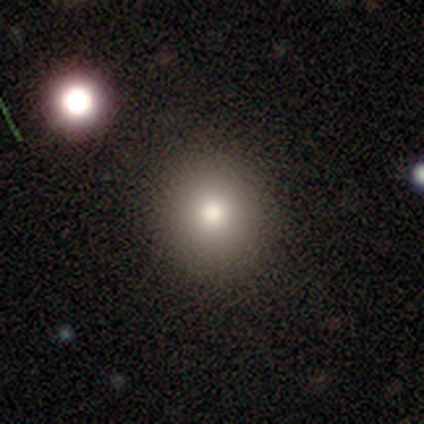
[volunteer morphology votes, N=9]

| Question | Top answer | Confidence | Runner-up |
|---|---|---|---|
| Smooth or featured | smooth | 78% | featured or disk (11%) |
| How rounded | round | 100% | — |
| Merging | none | 75% | minor disturbance (12%) |